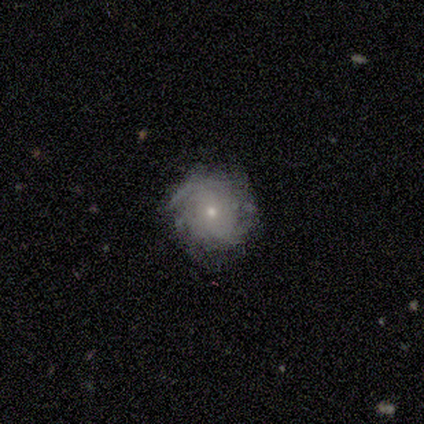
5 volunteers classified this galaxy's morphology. Smooth or featured? featured or disk (80%)
Edge-on disk? no (100%)
Bar? no (75%)
Spiral arms? yes (100%)
Spiral winding? tight (75%)
Spiral arm count? can't tell (75%)
Bulge size? small (75%)
Merging? none (80%)